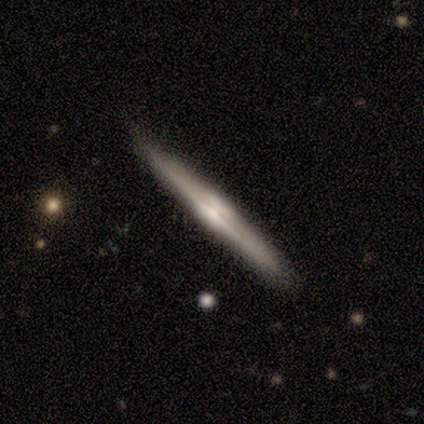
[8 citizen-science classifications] smooth 50% (tied), featured or disk 50% (tied), star or artifact 0%. Down the decision tree: how rounded — cigar-shaped (100%); merging — none (88%).